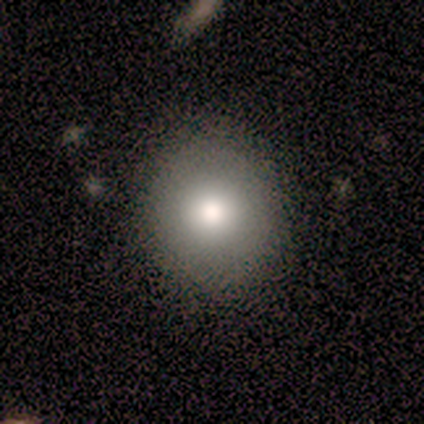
smooth 80%, featured or disk 20%, star or artifact 0%. Down the decision tree: how rounded — round (100%); merging — none (60%).